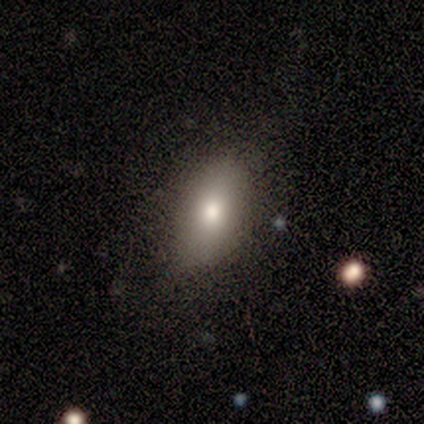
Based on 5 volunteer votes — A smooth galaxy with no disk features (80%) that is in between round and cigar-shaped (100%).

Vote fractions:
- Smooth or featured? smooth: 80% / featured or disk: 20% / star or artifact: 0%
- How rounded? in between: 100% / round: 0% / cigar-shaped: 0%
- Merging? none: 80% / minor disturbance: 20% / major disturbance: 0% / merger: 0%